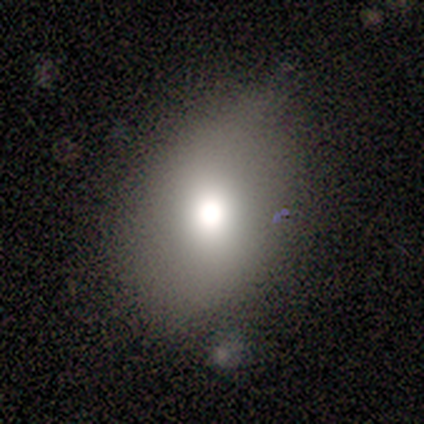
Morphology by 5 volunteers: type=smooth (80%); roundness=round (50%, tied with in between); merging=none (80%).